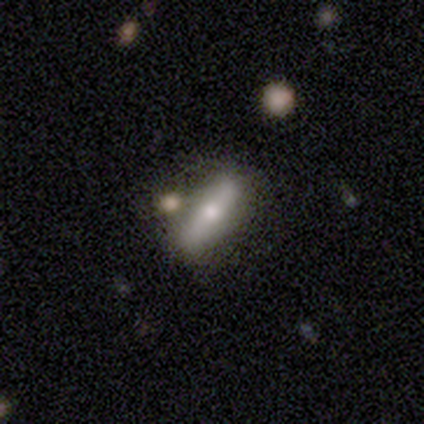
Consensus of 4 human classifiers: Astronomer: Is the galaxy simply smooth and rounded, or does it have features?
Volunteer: featured or disk — 75%.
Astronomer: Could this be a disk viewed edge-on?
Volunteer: yes — 67%.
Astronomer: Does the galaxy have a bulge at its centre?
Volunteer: none — 50%, tied with rounded at 50%.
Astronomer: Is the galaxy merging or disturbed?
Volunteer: none — 50%.